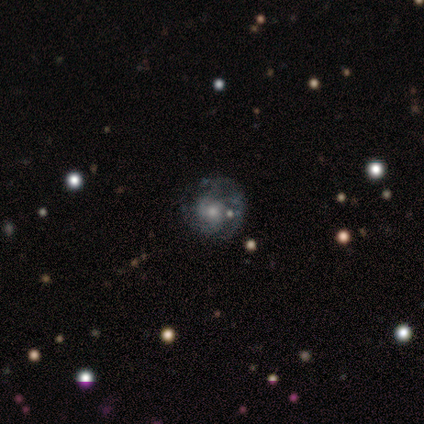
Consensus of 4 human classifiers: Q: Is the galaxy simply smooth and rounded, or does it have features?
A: featured or disk — 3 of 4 (75%).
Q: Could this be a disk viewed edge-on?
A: no — 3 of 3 (100%).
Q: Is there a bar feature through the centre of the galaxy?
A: no — 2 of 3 (67%).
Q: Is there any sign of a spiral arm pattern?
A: yes — 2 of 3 (67%).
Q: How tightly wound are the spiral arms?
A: tight — 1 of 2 (50%, tied with medium).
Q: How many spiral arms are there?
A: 3 — 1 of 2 (50%, tied with can't tell).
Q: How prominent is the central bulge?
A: moderate — 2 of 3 (67%).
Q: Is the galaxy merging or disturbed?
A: none — 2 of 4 (50%).